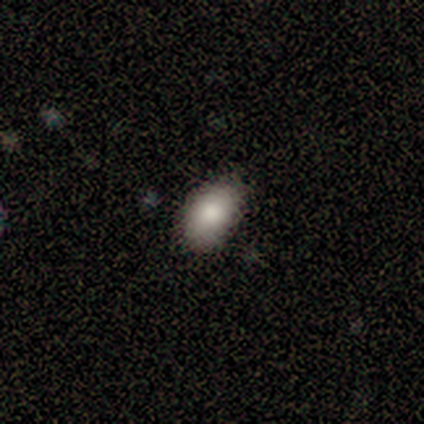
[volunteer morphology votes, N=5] Q: Smooth or featured?
A: smooth (100%)
Q: How rounded?
A: in between (100%)
Q: Merging?
A: none (80%); runner-up: minor disturbance (20%)